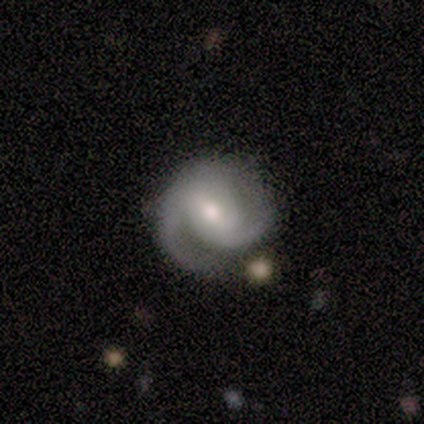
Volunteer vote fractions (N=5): smooth_or_featured: featured or disk (p=0.80) [alt: smooth p=0.20]
disk_edge_on: no (p=1.00)
bar: weak (p=0.75) [alt: no p=0.25]
has_spiral_arms: yes (p=1.00)
spiral_winding: medium (p=0.75) [alt: tight p=0.25]
spiral_arm_count: 2 (p=1.00)
bulge_size: moderate (p=1.00)
merging: none (p=0.60) [alt: minor disturbance p=0.40]